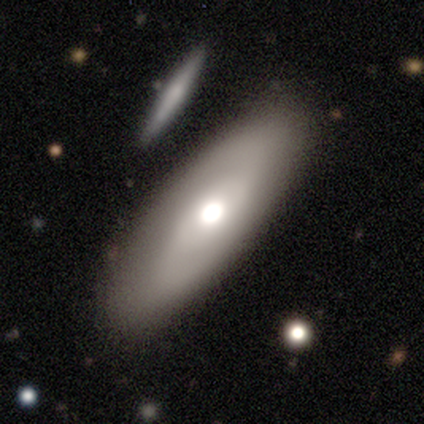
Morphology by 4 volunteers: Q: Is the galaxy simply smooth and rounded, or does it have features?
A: smooth — 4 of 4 (100%).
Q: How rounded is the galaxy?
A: in between — 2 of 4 (50%, tied with cigar-shaped).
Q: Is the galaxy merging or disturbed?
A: none — 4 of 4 (100%).